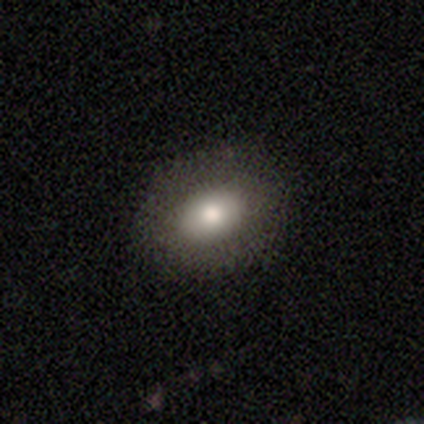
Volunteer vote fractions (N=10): Q: Smooth or featured?
A: smooth (50%); runner-up: featured or disk (30%)
Q: How rounded?
A: in between (80%); runner-up: round (20%)
Q: Merging?
A: none (75%); runner-up: major disturbance (25%)